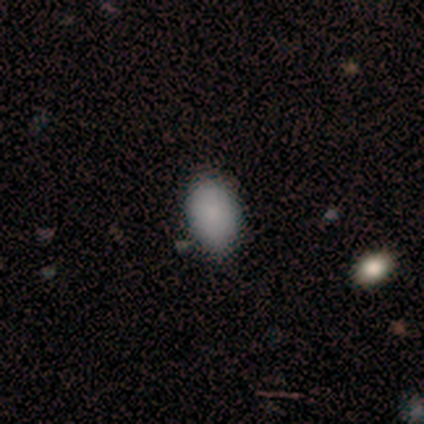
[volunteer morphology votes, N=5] This appears to be a smooth galaxy with no disk features (100%) that is in between round and cigar-shaped (80%). Merging: none (60%).